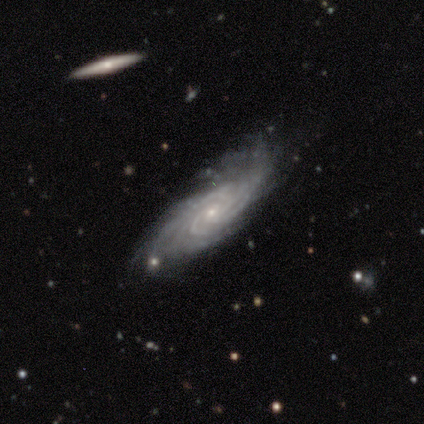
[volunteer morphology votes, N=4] A featured or disk galaxy (100%) with no bar (100%), tight (75%) spiral arms (100%) and a small central bulge (100%).

Vote fractions:
- Smooth or featured? featured or disk: 100% / smooth: 0% / star or artifact: 0%
- Edge-on disk? no: 100% / yes: 0%
- Bar? no: 100% / strong: 0% / weak: 0%
- Spiral arms? yes: 100% / no: 0%
- Spiral winding? tight: 75% / medium: 25% / loose: 0%
- Spiral arm count? can't tell: 50% / 4: 25% / more than 4: 25% / 1: 0% / 2: 0% / 3: 0%
- Bulge size? small: 100% / dominant: 0% / large: 0% / moderate: 0% / none: 0%
- Merging? none: 50% / minor disturbance: 25% / major disturbance: 25% / merger: 0%